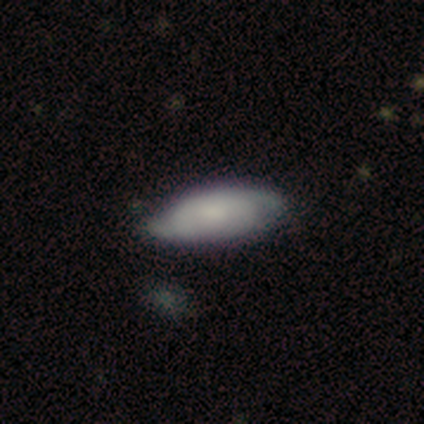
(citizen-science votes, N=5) Overall: smooth (60%; featured or disk 40%). How rounded: in between (100%). Merging: none (60%; minor disturbance 40%).